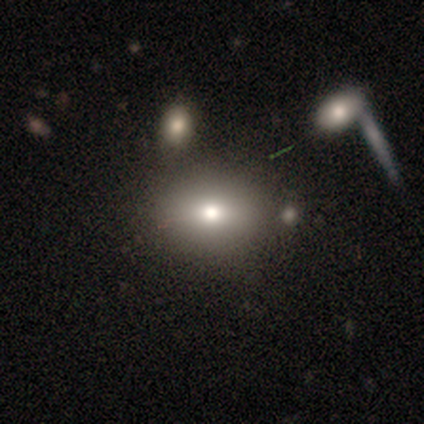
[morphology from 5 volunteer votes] Volunteers were most divided on "how rounded": in between: 75%, round: 25%, cigar-shaped: 0%. More confident: smooth or featured — smooth (80%); merging — none (75%).